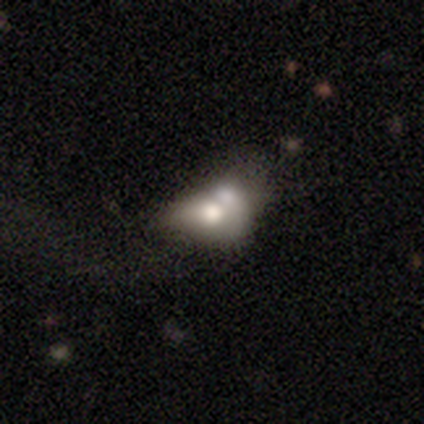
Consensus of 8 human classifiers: Smooth or featured?
  - featured or disk: 88% *
  - smooth: 12%
  - star or artifact: 0%
Edge-on disk?
  - no: 100% *
  - yes: 0%
Bar?
  - no: 100% *
  - strong: 0%
  - weak: 0%
Spiral arms?
  - no: 86% *
  - yes: 14%
Bulge size?
  - moderate: 43% *
  - large: 29%
  - small: 14%
  - none: 14%
  - dominant: 0%
Merging?
  - merger: 50% *
  - minor disturbance: 25%
  - none: 12%
  - major disturbance: 12%